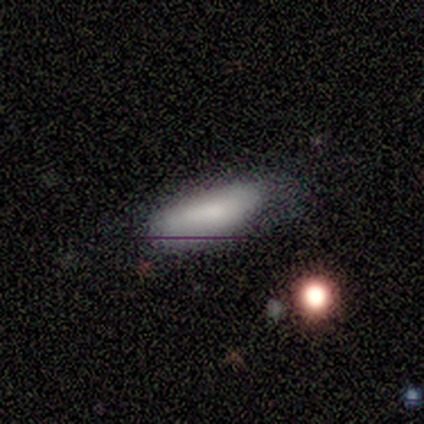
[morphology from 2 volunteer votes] smooth 100%, featured or disk 0%, star or artifact 0%. Down the decision tree: how rounded — in between (50%, tied with cigar-shaped); merging — none (50%, tied with major disturbance).